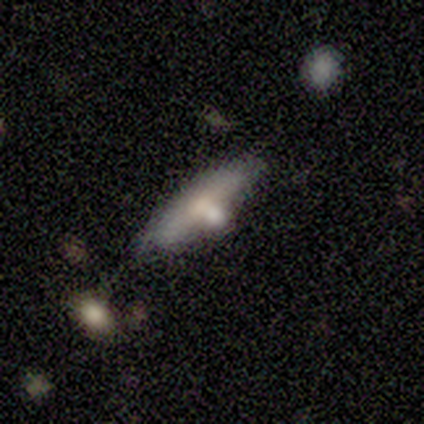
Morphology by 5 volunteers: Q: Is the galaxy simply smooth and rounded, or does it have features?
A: featured or disk — 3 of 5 (60%).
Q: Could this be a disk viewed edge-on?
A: no — 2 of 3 (67%).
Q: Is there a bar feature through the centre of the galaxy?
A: no — 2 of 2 (100%).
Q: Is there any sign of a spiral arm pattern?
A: no — 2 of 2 (100%).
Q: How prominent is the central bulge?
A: moderate — 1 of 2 (50%, tied with small).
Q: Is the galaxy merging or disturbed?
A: none — 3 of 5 (60%).